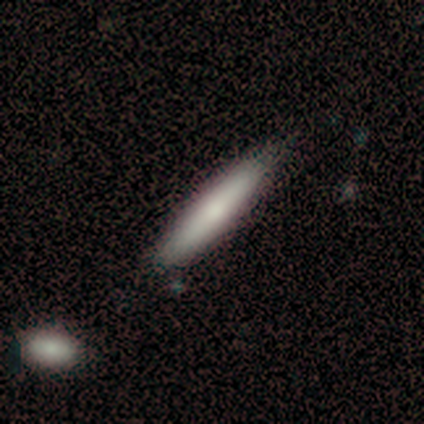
Morphology: type=smooth (60%); roundness=cigar-shaped (100%); merging=none (100%).